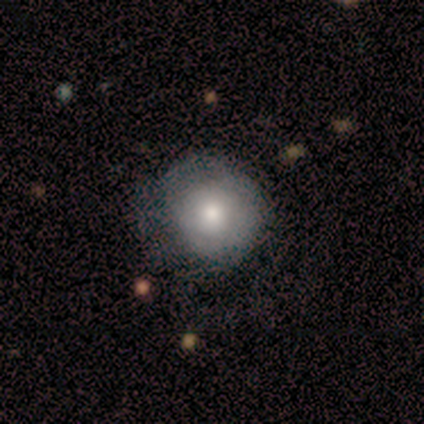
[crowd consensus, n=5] Smooth or featured? 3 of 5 (60%) said smooth. How rounded? 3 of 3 (100%) said round. Merging? 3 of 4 (75%) said none.